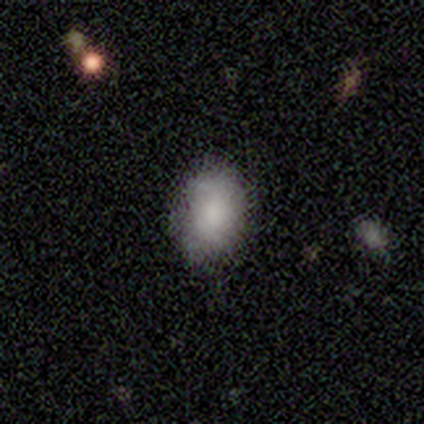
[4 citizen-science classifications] Q: Smooth or featured?
A: smooth (75%); runner-up: featured or disk (25%)
Q: How rounded?
A: in between (100%)
Q: Merging?
A: none (50%); tied with: major disturbance (50%)